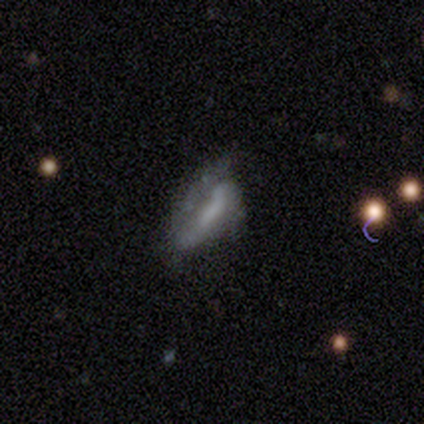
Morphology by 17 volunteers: Smooth or featured? 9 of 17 (53%) said featured or disk. Edge-on disk? 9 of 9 (100%) said no. Bar? 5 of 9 (56%) said weak. Spiral arms? 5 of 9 (56%) said no. Bulge size? 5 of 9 (56%) said none. Merging? 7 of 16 (44%) said none.